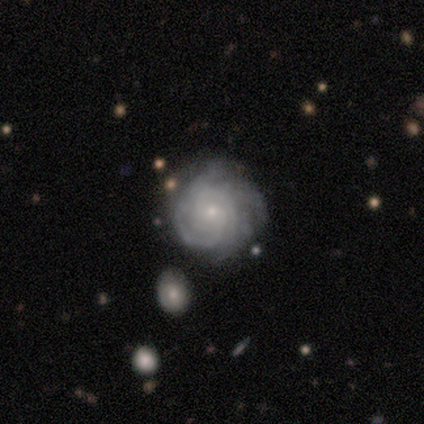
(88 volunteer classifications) This appears to be a featured or disk galaxy (89%) with no bar (65%), tight (76%) spiral arms (100%) and a small central bulge (88%). Merging: none (82%).